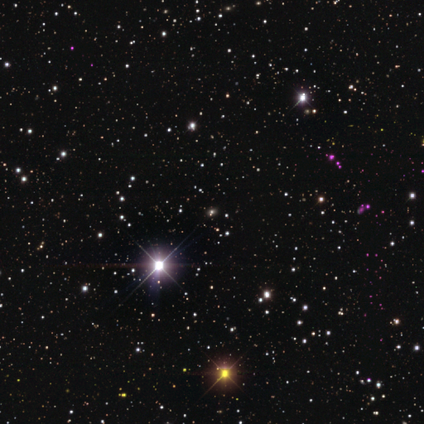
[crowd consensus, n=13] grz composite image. It shows a star or artifact, not a galaxy (54%).